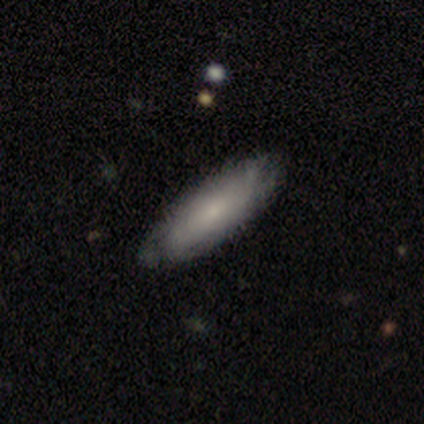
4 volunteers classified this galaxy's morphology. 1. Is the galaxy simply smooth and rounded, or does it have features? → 75% smooth, 25% featured or disk, 0% star or artifact.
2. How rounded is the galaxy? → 67% in between, 33% cigar-shaped, 0% round.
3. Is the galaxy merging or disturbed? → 75% none, 25% minor disturbance, 0% major disturbance, 0% merger.